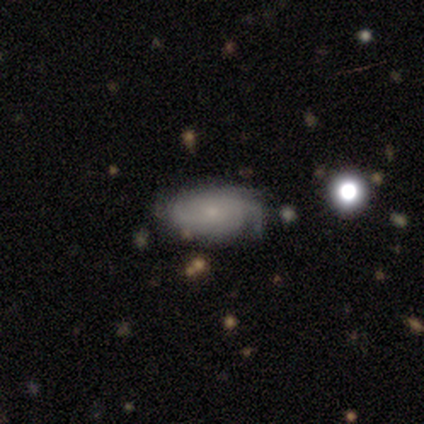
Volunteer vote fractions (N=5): This is clearly a featured or disk galaxy (100%). It is clearly not viewed edge-on (100%). Bar: likely no (60%). Spiral arm pattern: clearly yes (80%). Spiral arm count: possibly can't tell (50%). Spiral winding: possibly tight (50%). Central bulge: clearly small (80%). Merging: likely none (60%).